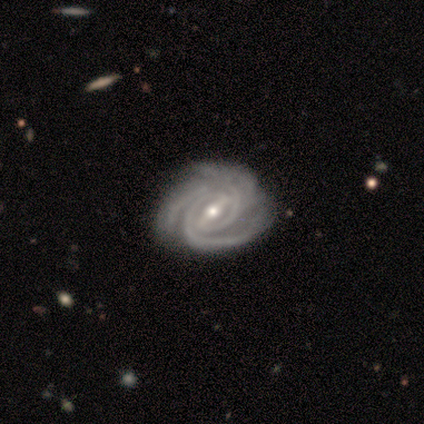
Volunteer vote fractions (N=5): Smooth or featured?
  - featured or disk: 100% *
  - smooth: 0%
  - star or artifact: 0%
Edge-on disk?
  - no: 100% *
  - yes: 0%
Bar?
  - strong: 80% *
  - weak: 20%
  - no: 0%
Spiral arms?
  - yes: 100% *
  - no: 0%
Spiral winding?
  - tight: 100% *
  - medium: 0%
  - loose: 0%
Spiral arm count?
  - 3: 80% *
  - 2: 20%
  - 1: 0%
  - 4: 0%
  - more than 4: 0%
  - can't tell: 0%
Bulge size?
  - small: 60% *
  - moderate: 40%
  - dominant: 0%
  - large: 0%
  - none: 0%
Merging?
  - none: 100% *
  - minor disturbance: 0%
  - major disturbance: 0%
  - merger: 0%